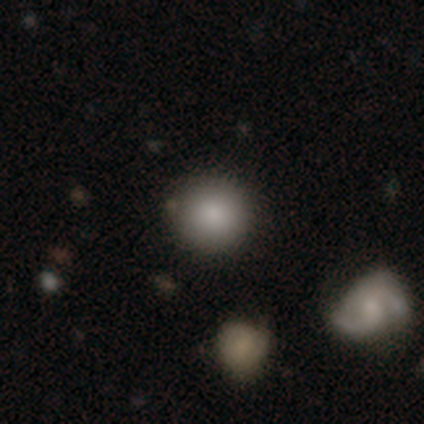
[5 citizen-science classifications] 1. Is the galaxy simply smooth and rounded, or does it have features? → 80% smooth, 20% star or artifact, 0% featured or disk.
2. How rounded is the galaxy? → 100% round, 0% in between, 0% cigar-shaped.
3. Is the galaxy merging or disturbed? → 100% none, 0% minor disturbance, 0% major disturbance, 0% merger.